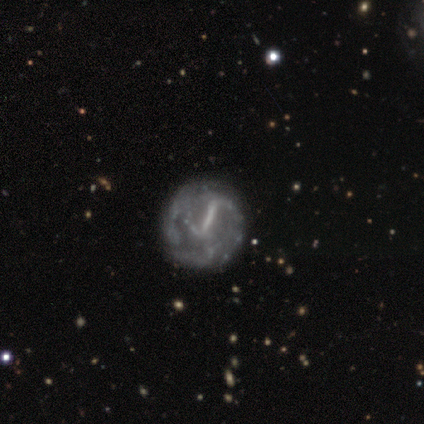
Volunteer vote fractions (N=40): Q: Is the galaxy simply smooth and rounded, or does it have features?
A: featured or disk — 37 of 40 (92%).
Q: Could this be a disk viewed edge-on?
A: no — 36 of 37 (97%).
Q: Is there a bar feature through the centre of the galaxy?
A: strong — 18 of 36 (50%).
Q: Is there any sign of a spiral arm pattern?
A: yes — 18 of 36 (50%, tied with no).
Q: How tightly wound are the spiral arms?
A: tight — 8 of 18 (44%).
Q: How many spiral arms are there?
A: can't tell — 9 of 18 (50%).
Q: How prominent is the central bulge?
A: none — 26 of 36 (72%).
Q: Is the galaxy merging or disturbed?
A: none — 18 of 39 (46%).